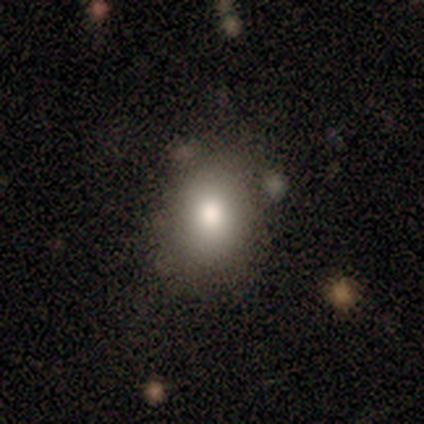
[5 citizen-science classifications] Smooth or featured? 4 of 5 (80%) said smooth. How rounded? 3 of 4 (75%) said in between. Merging? 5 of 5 (100%) said none.